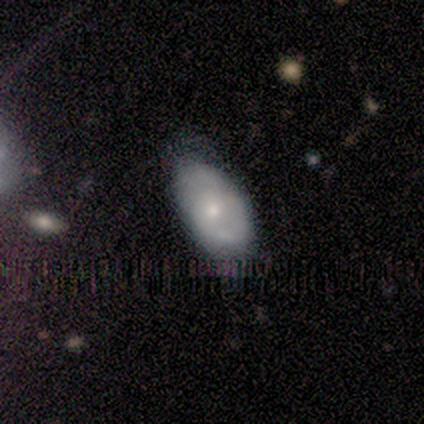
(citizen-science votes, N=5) Smooth or featured? 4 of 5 (80%) said smooth. How rounded? 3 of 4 (75%) said in between. Merging? 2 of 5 (40%, tied with minor disturbance) said none.